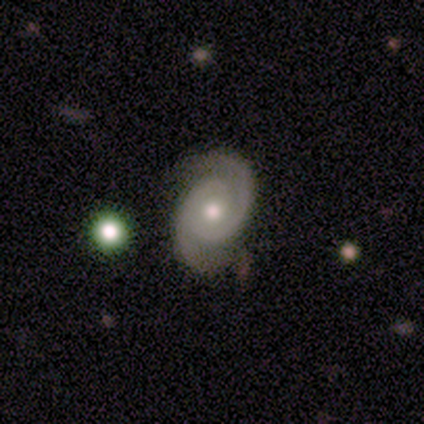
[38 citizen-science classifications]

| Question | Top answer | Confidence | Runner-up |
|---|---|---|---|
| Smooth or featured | featured or disk | 89% | smooth (8%) |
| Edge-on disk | no | 100% | — |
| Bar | no | 71% | weak (26%) |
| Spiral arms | yes | 94% | no (6%) |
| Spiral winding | tight | 62% | medium (34%) |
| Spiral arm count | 2 | 97% | 3 (3%) |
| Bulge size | moderate | 65% | small (32%) |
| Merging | none | 84% | minor disturbance (8%) |